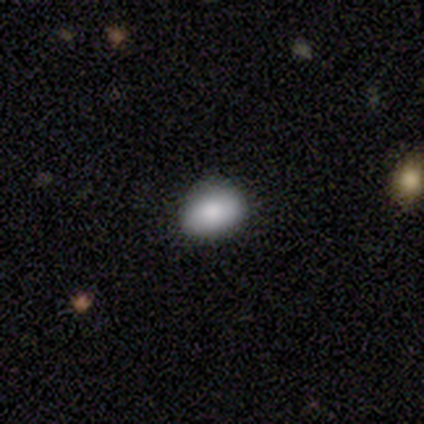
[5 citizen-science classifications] Smooth or featured? smooth (100%)
How rounded? in between (100%)
Merging? none (80%)